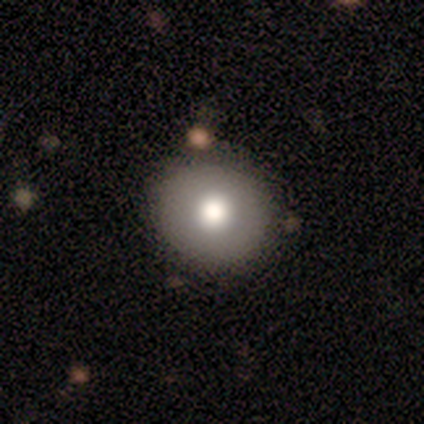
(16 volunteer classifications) Morphology: type=smooth (75%); roundness=round (100%); merging=none (100%).